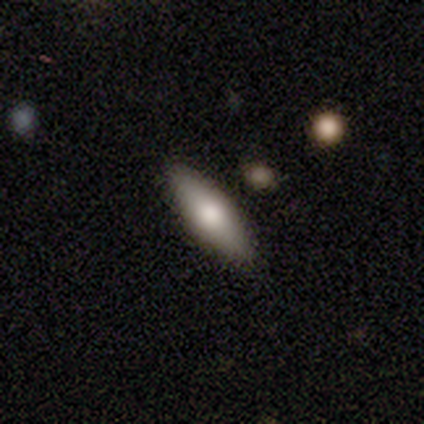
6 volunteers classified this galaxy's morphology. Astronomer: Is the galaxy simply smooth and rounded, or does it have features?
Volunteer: smooth — 67%.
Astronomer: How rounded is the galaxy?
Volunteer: in between — 75%.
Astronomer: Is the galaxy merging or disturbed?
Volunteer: none — 100%.